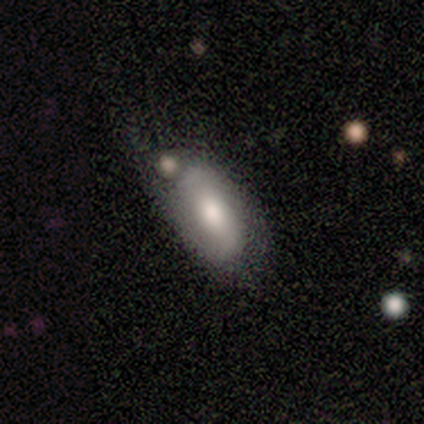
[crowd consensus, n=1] Smooth or featured? 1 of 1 (100%) said featured or disk. Edge-on disk? 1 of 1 (100%) said no. Bar? 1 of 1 (100%) said strong. Spiral arms? 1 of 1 (100%) said yes. Spiral winding? 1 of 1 (100%) said tight. Spiral arm count? 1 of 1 (100%) said 2. Bulge size? 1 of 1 (100%) said large. Merging? 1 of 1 (100%) said minor disturbance.